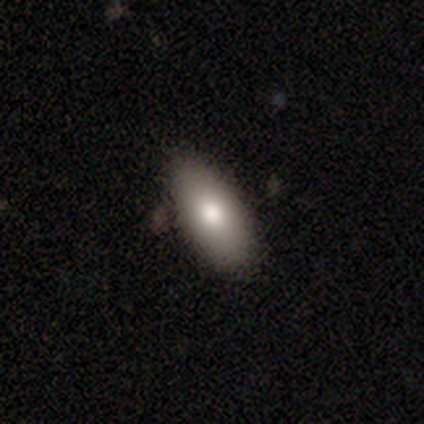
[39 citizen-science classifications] Volunteers were most divided on "smooth or featured": smooth: 72%, featured or disk: 18%, star or artifact: 10%. More confident: merging — none (91%); how rounded — in between (82%).